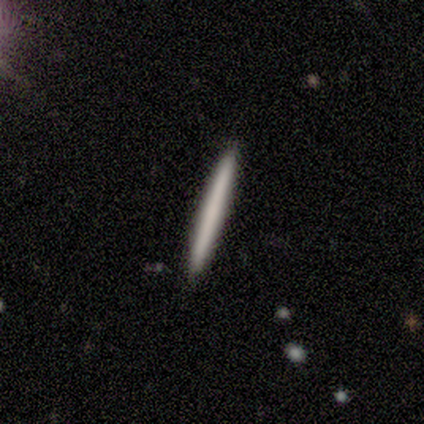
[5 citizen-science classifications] smooth 60%, featured or disk 20%, star or artifact 20%. Down the decision tree: how rounded — cigar-shaped (100%); merging — none (100%).